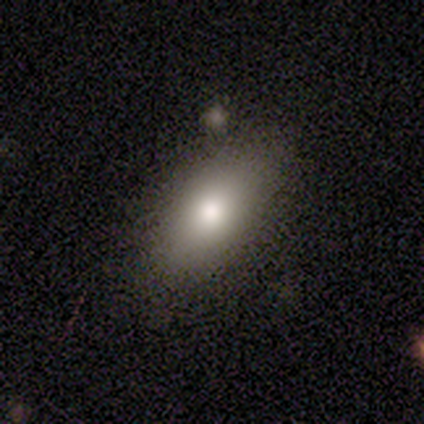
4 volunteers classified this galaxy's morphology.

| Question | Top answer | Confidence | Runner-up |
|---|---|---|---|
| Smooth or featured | smooth | 50% | tied: featured or disk (50%) |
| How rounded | in between | 100% | — |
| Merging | none | 100% | — |